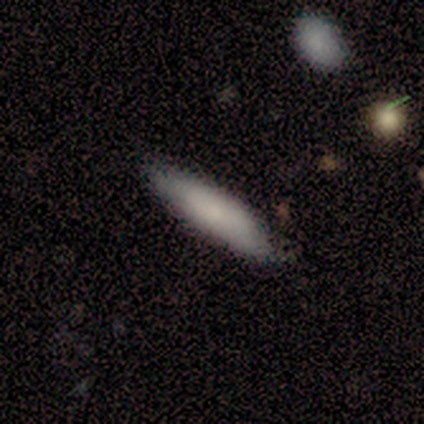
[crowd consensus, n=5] Volunteers were most divided on "how rounded": in between: 80%, cigar-shaped: 20%, round: 0%. More confident: smooth or featured — smooth (100%); merging — none (100%).